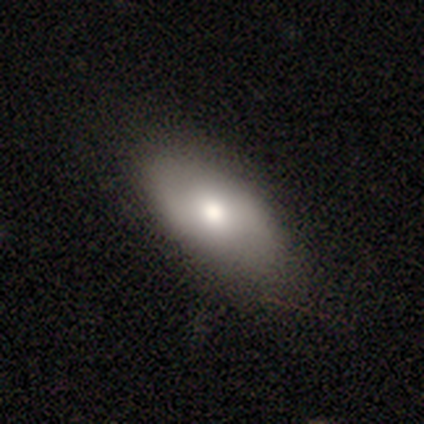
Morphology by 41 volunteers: Smooth or featured: smooth — 66% (featured or disk — 29%)
How rounded: in between — 96% (cigar-shaped — 4%)
Merging: none — 59% (major disturbance — 8%)